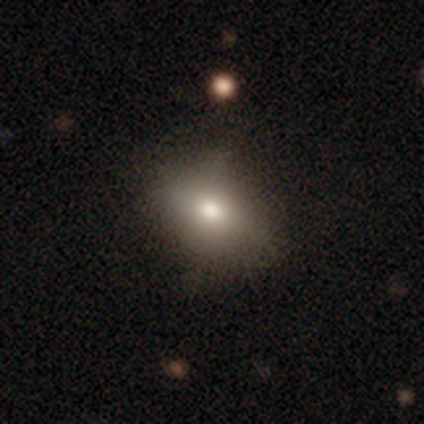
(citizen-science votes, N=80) Overall: smooth (78%). How rounded: in between (71%). Merging: none (37%; minor disturbance 10%).